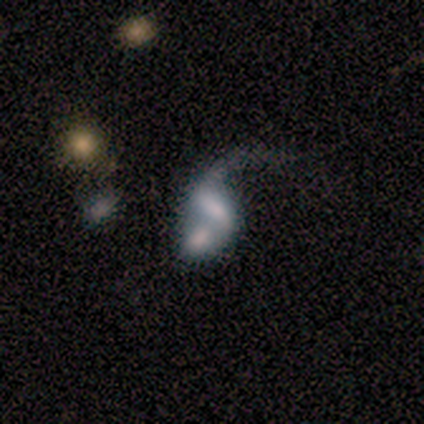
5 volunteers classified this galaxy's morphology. This appears to be a featured or disk galaxy (80%) with no bar (67%), no spiral arms (67%) and a dominant central bulge (33%, tied with large and moderate). Merging: merger (80%).